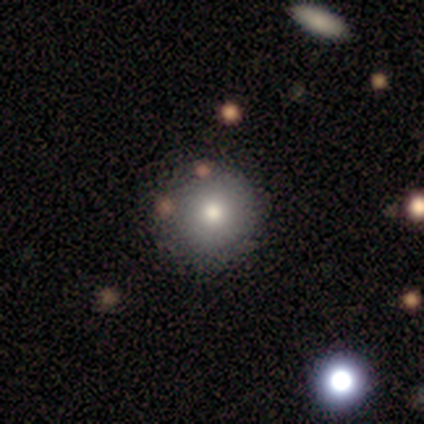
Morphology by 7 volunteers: Smooth or featured?
  - smooth: 100% *
  - featured or disk: 0%
  - star or artifact: 0%
How rounded?
  - round: 86% *
  - cigar-shaped: 14%
  - in between: 0%
Merging?
  - none: 100% *
  - minor disturbance: 0%
  - major disturbance: 0%
  - merger: 0%